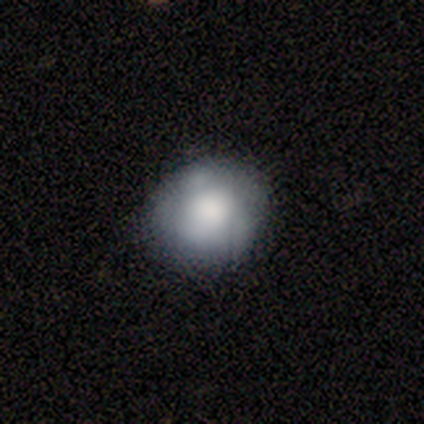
Overall: smooth (100%). How rounded: round (80%). Merging: none (80%).